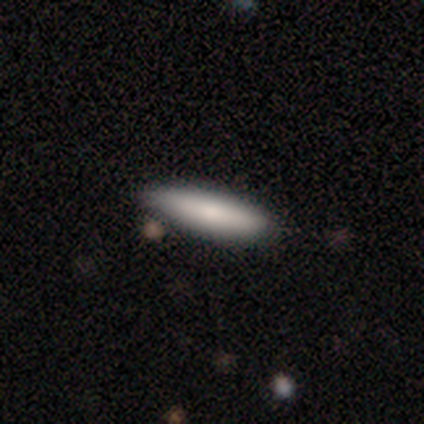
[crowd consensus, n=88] A smooth galaxy with no disk features (75%) that is cigar-shaped (80%). Merging: none (71%).